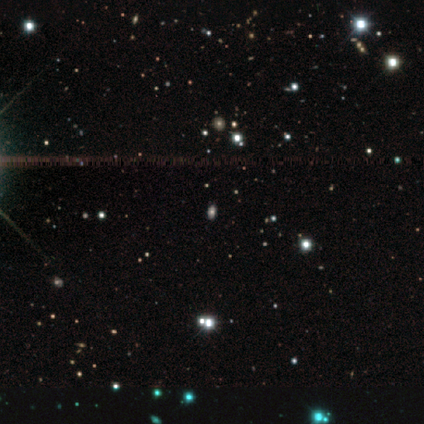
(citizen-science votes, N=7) A star or artifact, not a galaxy (86%).

Vote fractions:
- Smooth or featured? star or artifact: 86% / smooth: 14% / featured or disk: 0%